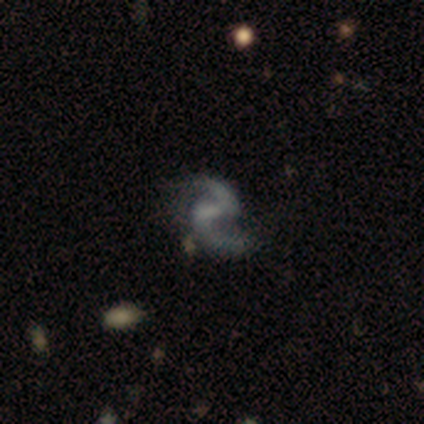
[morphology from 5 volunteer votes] Q: Smooth or featured?
A: featured or disk (80%); runner-up: smooth (20%)
Q: Edge-on disk?
A: no (75%); runner-up: yes (25%)
Q: Bar?
A: strong (33%); tied with: weak (33%); no (33%)
Q: Spiral arms?
A: yes (100%)
Q: Spiral winding?
A: loose (100%)
Q: Spiral arm count?
A: 2 (100%)
Q: Bulge size?
A: small (67%); runner-up: moderate (33%)
Q: Merging?
A: none (60%); runner-up: minor disturbance (20%)